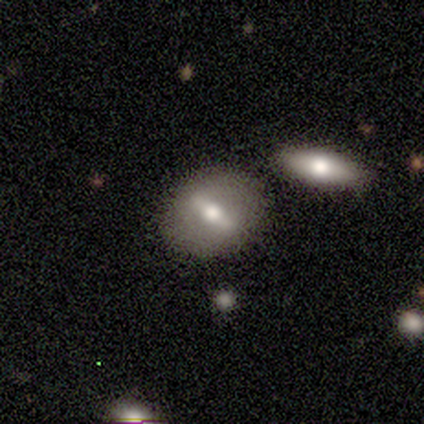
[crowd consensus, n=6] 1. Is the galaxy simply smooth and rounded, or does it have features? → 67% featured or disk, 17% smooth, 17% star or artifact.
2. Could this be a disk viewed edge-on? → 75% no, 25% yes.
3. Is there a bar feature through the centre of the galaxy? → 67% weak, 33% strong, 0% no.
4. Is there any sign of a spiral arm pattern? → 100% no, 0% yes.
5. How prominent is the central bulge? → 67% moderate, 33% small, 0% dominant, 0% large, 0% none.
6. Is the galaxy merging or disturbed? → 100% none, 0% minor disturbance, 0% major disturbance, 0% merger.